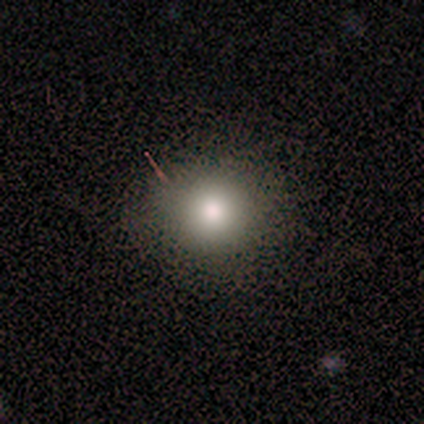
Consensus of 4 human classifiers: Smooth or featured? 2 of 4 (50%, tied with star or artifact) said smooth. How rounded? 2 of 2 (100%) said round. Merging? 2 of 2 (100%) said none.